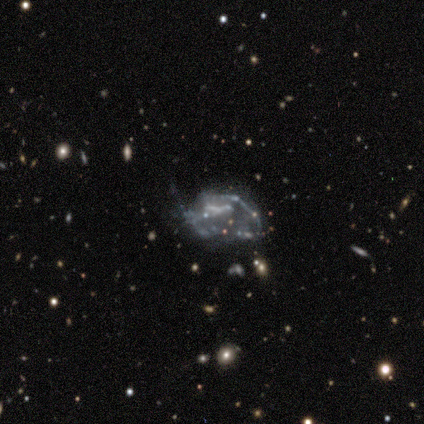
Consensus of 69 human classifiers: Q: Smooth or featured?
A: featured or disk (70%); runner-up: star or artifact (19%)
Q: Edge-on disk?
A: no (98%); runner-up: yes (2%)
Q: Bar?
A: no (74%); runner-up: weak (19%)
Q: Spiral arms?
A: no (77%); runner-up: yes (23%)
Q: Bulge size?
A: none (81%); runner-up: moderate (11%)
Q: Merging?
A: major disturbance (39%); runner-up: none (32%)